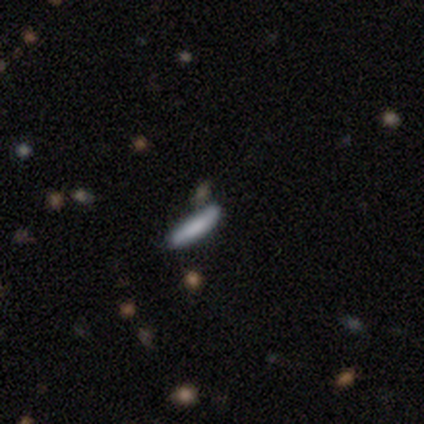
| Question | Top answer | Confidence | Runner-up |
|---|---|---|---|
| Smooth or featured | smooth | 80% | featured or disk (20%) |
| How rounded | cigar-shaped | 100% | — |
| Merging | none | 100% | — |